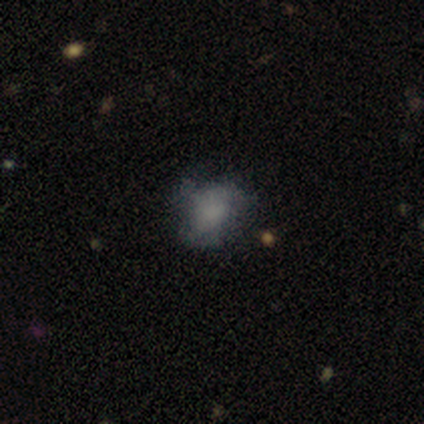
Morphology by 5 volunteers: Smooth or featured? smooth (80%)
How rounded? round (75%)
Merging? none (80%)